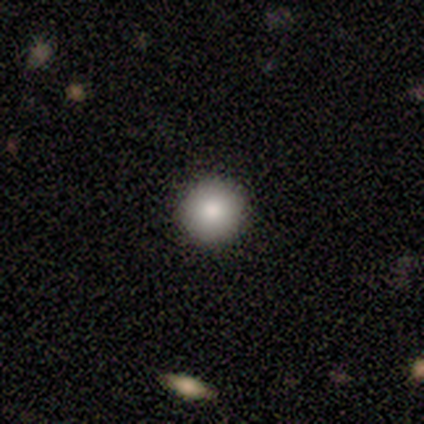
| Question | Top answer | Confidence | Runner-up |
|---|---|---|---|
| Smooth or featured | smooth | 60% | featured or disk (20%) |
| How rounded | round | 100% | — |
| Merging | none | 100% | — |